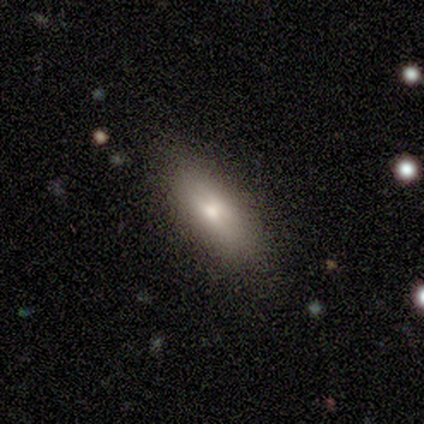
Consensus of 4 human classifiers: Overall: smooth (75%). How rounded: cigar-shaped (67%; in between 33%). Merging: none (75%).